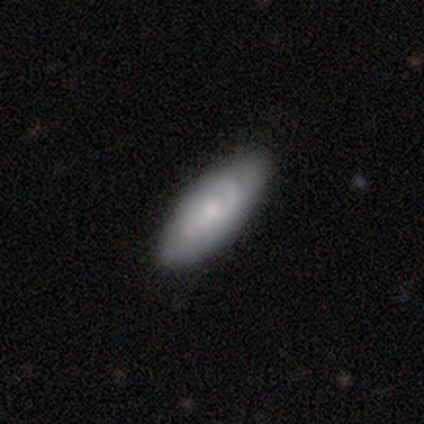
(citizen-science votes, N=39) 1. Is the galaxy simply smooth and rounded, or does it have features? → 51% smooth, 49% featured or disk, 0% star or artifact.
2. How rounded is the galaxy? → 95% in between, 5% cigar-shaped, 0% round.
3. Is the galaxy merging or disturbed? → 85% none, 15% minor disturbance, 0% major disturbance, 0% merger.